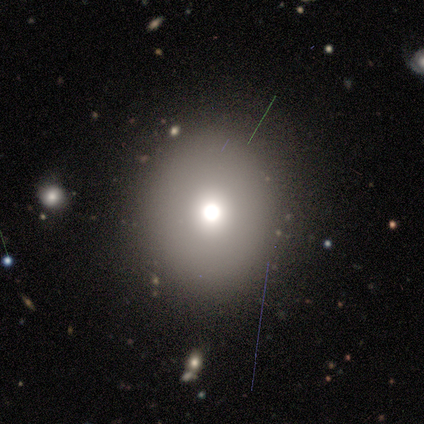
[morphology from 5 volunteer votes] Q: Smooth or featured?
A: smooth (40%); tied with: star or artifact (40%)
Q: How rounded?
A: round (100%)
Q: Merging?
A: none (67%); runner-up: merger (33%)